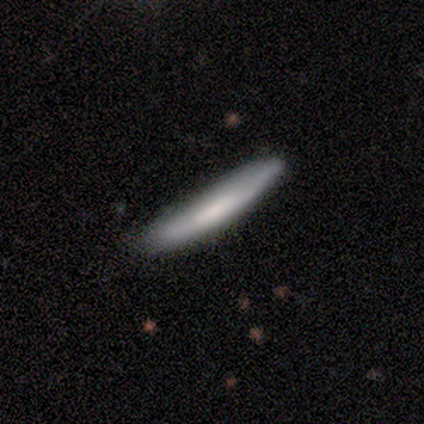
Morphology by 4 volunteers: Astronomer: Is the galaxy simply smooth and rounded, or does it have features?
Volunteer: smooth — 100%.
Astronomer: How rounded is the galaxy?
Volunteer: cigar-shaped — 100%.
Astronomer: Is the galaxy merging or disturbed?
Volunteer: none — 75%.